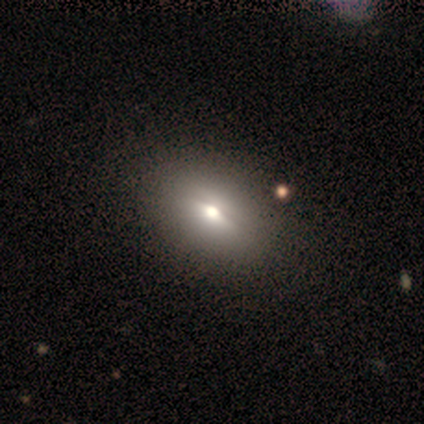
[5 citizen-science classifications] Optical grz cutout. It shows a smooth galaxy with no disk features (60%) that is in between round and cigar-shaped (100%). Merging: none (60%).